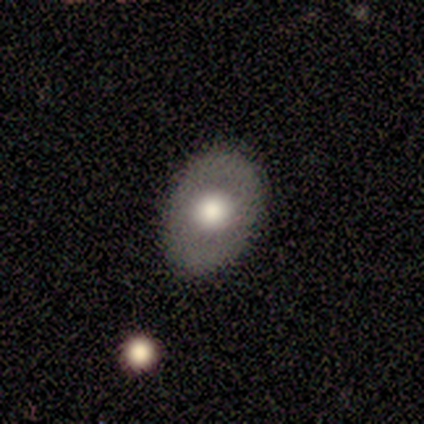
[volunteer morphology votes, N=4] This is likely a smooth galaxy (75%). How rounded: clearly in between (100%). Merging: likely none (75%).